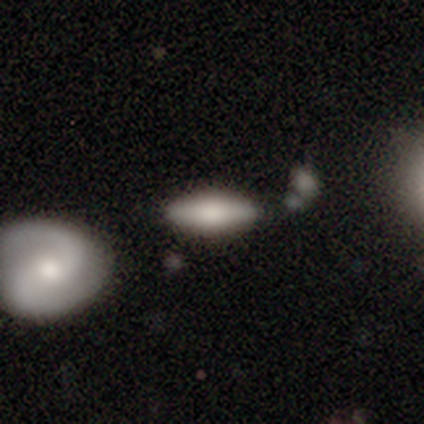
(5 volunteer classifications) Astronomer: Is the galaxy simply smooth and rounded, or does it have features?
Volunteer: featured or disk — 60% (runner-up: smooth, 40%).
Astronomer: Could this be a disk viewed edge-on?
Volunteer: yes — 67%.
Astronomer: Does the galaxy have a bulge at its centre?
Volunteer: boxy — 100%.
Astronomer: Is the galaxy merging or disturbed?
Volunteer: none — 80%.